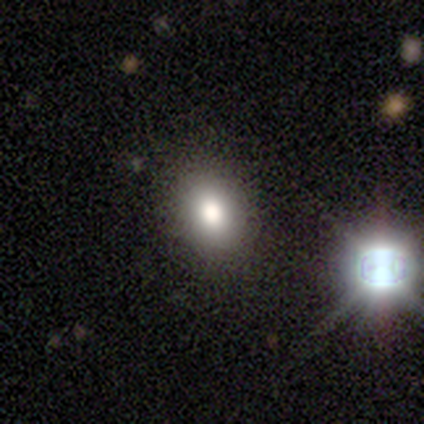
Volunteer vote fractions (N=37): Overall: smooth (70%). How rounded: in between (65%; round 35%). Merging: none (75%).